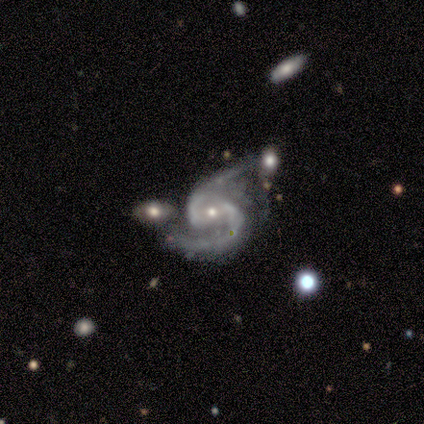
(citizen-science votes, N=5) Smooth or featured: featured or disk — 100%
Edge-on disk: no — 100%
Bar: strong — 40% (tied with weak — 40%)
Spiral arms: yes — 100%
Spiral winding: medium — 60% (tight — 20%)
Spiral arm count: 2 — 100%
Bulge size: small — 80% (moderate — 20%)
Merging: minor disturbance — 40% (tied with major disturbance — 40%)